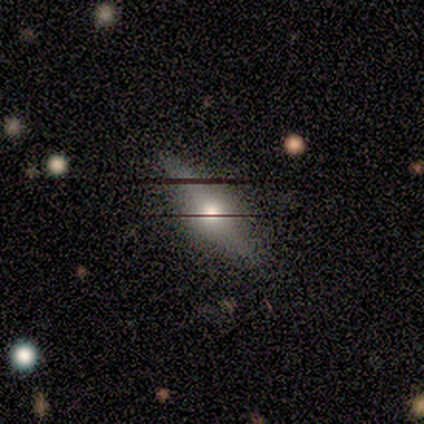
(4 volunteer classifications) This is possibly a smooth galaxy (50%). How rounded: possibly in between (50%, tied with cigar-shaped). Merging: likely none (67%).